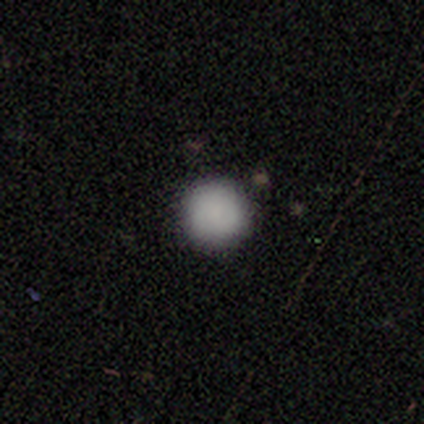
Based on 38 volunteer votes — smooth-or-featured: smooth: 82% | featured or disk: 11% | star or artifact: 8%
  how-rounded: round: 94% | in between: 6% | cigar-shaped: 0%
  merging: none: 83% | minor disturbance: 11% | major disturbance: 3% | merger: 3%